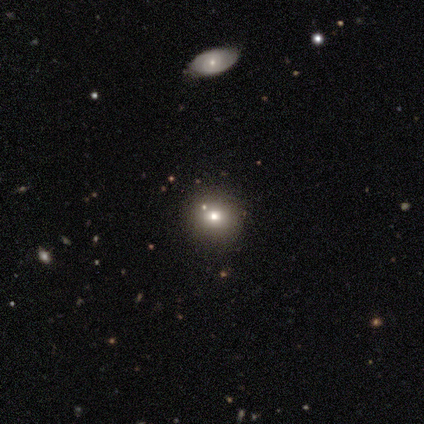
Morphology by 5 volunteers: This appears to be a smooth galaxy with no disk features (80%) that is round (75%). Merging: none (100%).